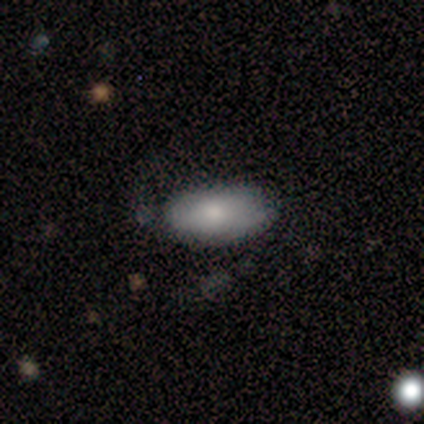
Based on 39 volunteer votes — smooth 72%, featured or disk 18%, star or artifact 10%. Down the decision tree: how rounded — in between (93%); merging — none (66%).